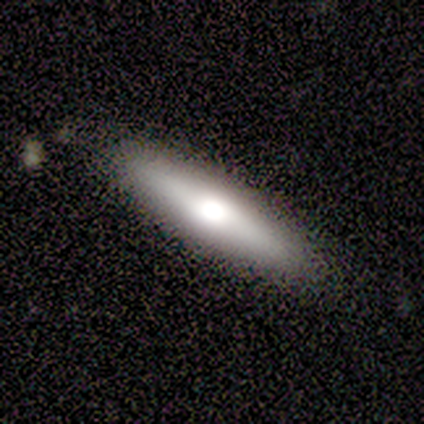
Volunteers were most divided on "smooth or featured" (2-way tie): smooth: 50%, featured or disk: 50%, star or artifact: 0%. More confident: how rounded — cigar-shaped (100%); merging — none (100%).